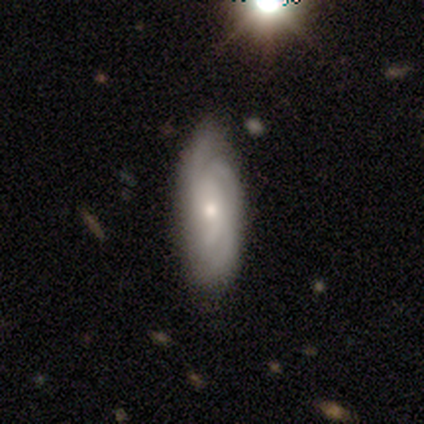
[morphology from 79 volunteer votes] featured or disk 75%, smooth 23%, star or artifact 3%. Down the decision tree: edge-on disk — no (90%); bar — no (77%); spiral arms — yes (96%); spiral arm count — 2 (31%); spiral winding — tight (45%, tied with medium); bulge size — small (57%); merging — none (36%).